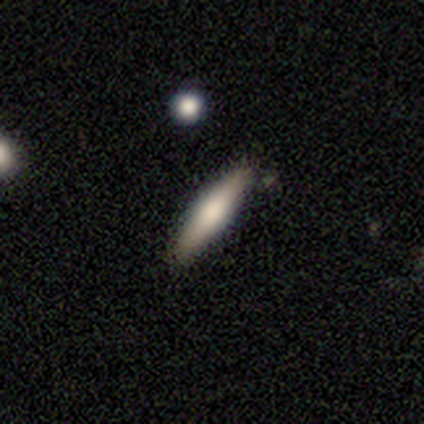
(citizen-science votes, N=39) Smooth or featured?
  - smooth: 49% *
  - featured or disk: 46%
  - star or artifact: 5%
How rounded?
  - cigar-shaped: 100% *
  - round: 0%
  - in between: 0%
Merging?
  - none: 84% *
  - minor disturbance: 16%
  - major disturbance: 0%
  - merger: 0%